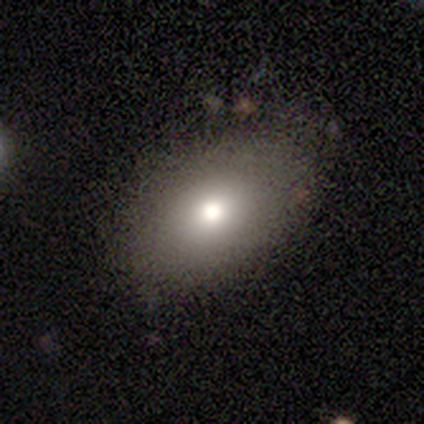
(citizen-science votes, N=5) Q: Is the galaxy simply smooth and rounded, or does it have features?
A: smooth — 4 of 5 (80%).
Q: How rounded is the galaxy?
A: in between — 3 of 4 (75%).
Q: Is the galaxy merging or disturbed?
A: none — 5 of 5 (100%).